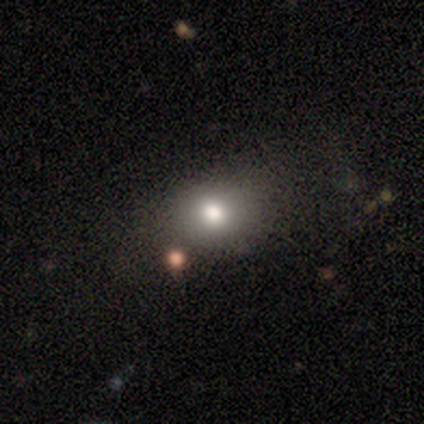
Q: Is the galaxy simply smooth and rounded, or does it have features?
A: smooth — 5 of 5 (100%).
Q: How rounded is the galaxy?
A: in between — 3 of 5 (60%).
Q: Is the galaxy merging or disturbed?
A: none — 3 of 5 (60%).